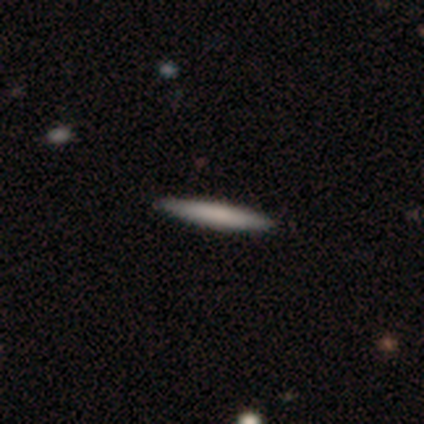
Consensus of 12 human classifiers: smooth 83%, featured or disk 17%, star or artifact 0%. Down the decision tree: how rounded — cigar-shaped (100%); merging — none (83%).